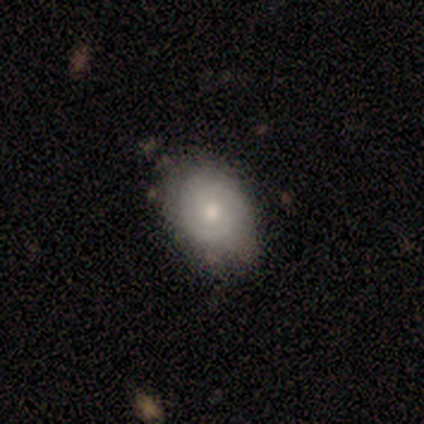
A smooth galaxy with no disk features (55%) that is in between round and cigar-shaped (71%). Merging: none (58%).